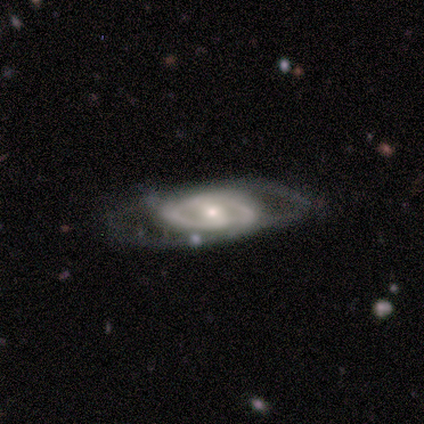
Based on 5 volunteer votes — This appears to be a featured or disk galaxy (100%) with no bar (50%), 2 (100%) tight (100%) spiral arms (50%, tied with no) and a moderate central bulge (75%). Merging: none (80%).